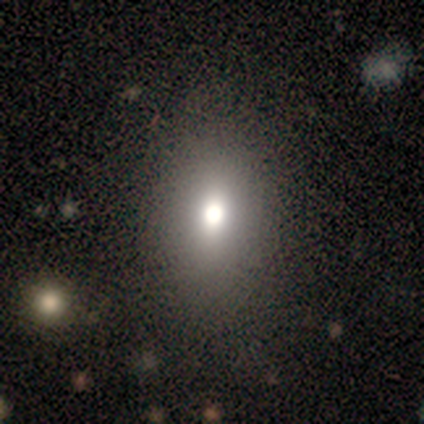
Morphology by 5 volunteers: This appears to be a smooth galaxy with no disk features (80%) that is in between round and cigar-shaped (75%). Merging: none (75%).